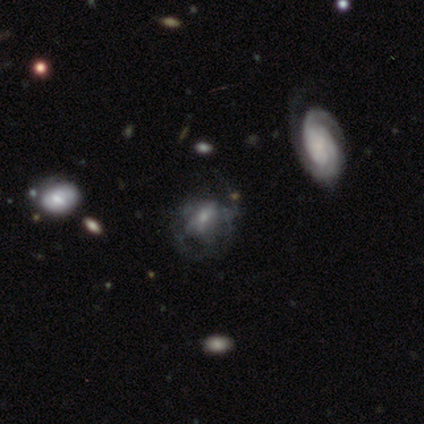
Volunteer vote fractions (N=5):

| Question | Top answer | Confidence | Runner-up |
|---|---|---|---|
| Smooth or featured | smooth | 40% | tied: featured or disk (40%) |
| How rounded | in between | 100% | — |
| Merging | none | 75% | major disturbance (25%) |